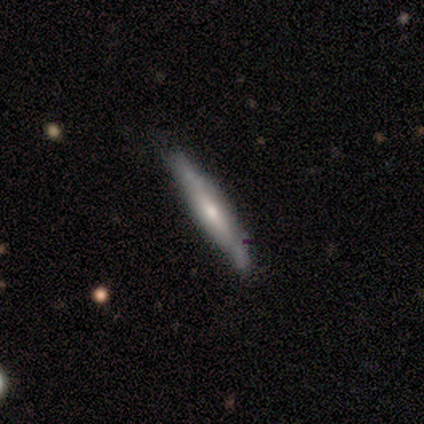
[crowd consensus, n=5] Smooth or featured? 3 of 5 (60%) said featured or disk. Edge-on disk? 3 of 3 (100%) said yes. Edge-on bulge? 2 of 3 (67%) said none. Merging? 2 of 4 (50%, tied with minor disturbance) said none.